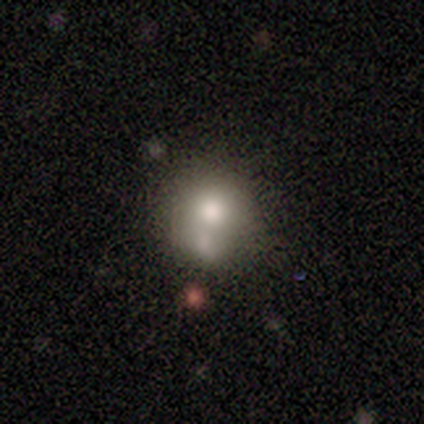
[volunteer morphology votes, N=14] Smooth or featured?
  - smooth: 57% *
  - featured or disk: 36%
  - star or artifact: 7%
How rounded?
  - round: 88% *
  - in between: 12%
  - cigar-shaped: 0%
Merging?
  - minor disturbance: 38% *
  - none: 31%
  - merger: 31%
  - major disturbance: 0%